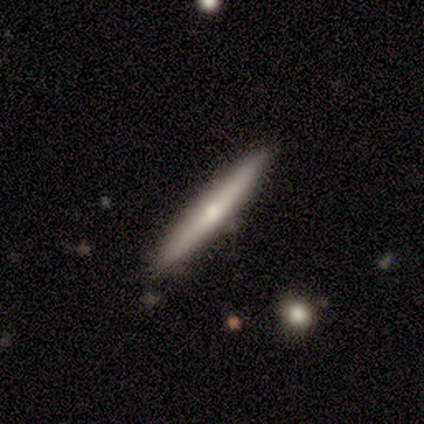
smooth-or-featured: smooth: 60% | featured or disk: 40% | star or artifact: 0%
  how-rounded: cigar-shaped: 100% | round: 0% | in between: 0%
  merging: none: 100% | minor disturbance: 0% | major disturbance: 0% | merger: 0%